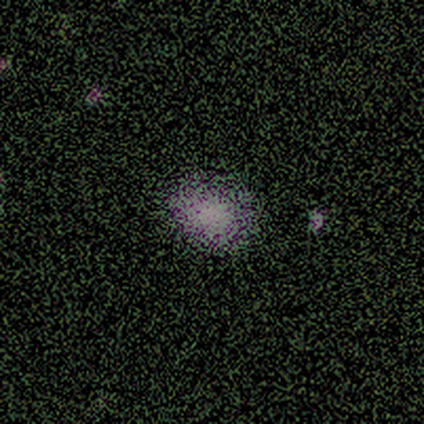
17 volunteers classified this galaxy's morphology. Smooth or featured? 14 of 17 (82%) said smooth. How rounded? 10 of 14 (71%) said round. Merging? 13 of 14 (93%) said none.